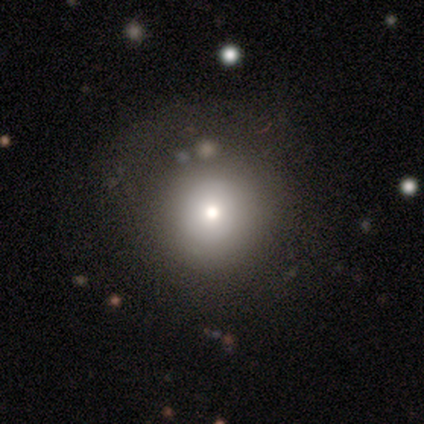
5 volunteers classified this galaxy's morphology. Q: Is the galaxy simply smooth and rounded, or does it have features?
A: smooth — 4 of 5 (80%).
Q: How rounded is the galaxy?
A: round — 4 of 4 (100%).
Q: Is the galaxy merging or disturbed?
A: none — 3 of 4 (75%).